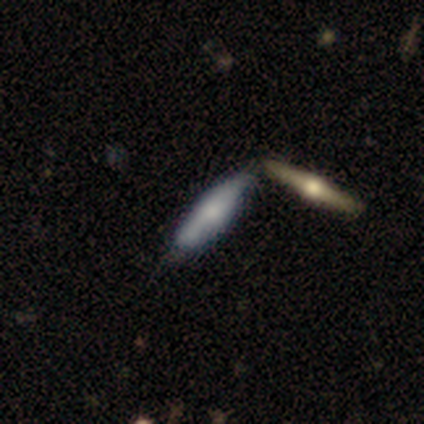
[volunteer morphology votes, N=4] This is likely a featured or disk galaxy (75%). It is clearly viewed edge-on (100%). Edge-on bulge: likely rounded (67%). Merging: possibly none (50%).